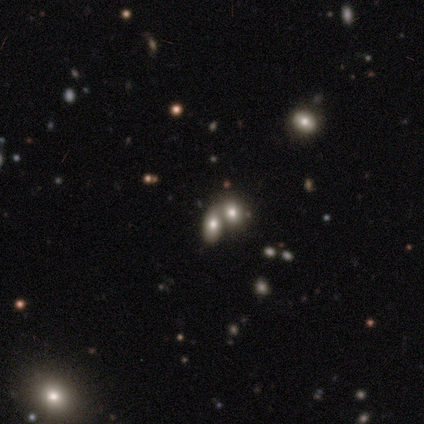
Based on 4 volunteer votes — Volunteers were most divided on "smooth or featured": smooth: 75%, featured or disk: 25%, star or artifact: 0%. More confident: how rounded — in between (100%); merging — merger (75%).